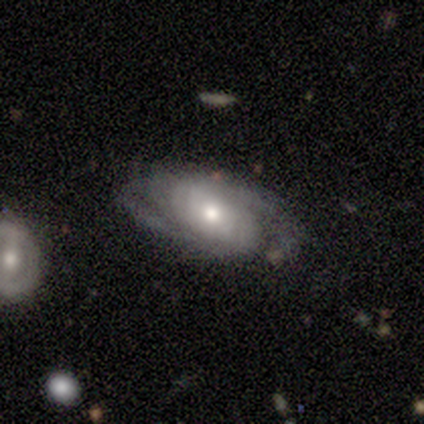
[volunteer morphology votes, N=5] smooth-or-featured: featured or disk: 80% | star or artifact: 20% | smooth: 0%
  disk-edge-on: no: 100% | yes: 0%
    bar: weak: 50% (tied) | no: 50% (tied) | strong: 0%
    has-spiral-arms: yes: 75% | no: 25%
      spiral-winding: medium: 100% | tight: 0% | loose: 0%
      spiral-arm-count: 2: 67% | can't tell: 33% | 1: 0% | 3: 0% | 4: 0% | more than 4: 0%
    bulge-size: moderate: 75% | large: 25% | dominant: 0% | small: 0% | none: 0%
  merging: none: 50% (tied) | minor disturbance: 50% (tied) | major disturbance: 0% | merger: 0%